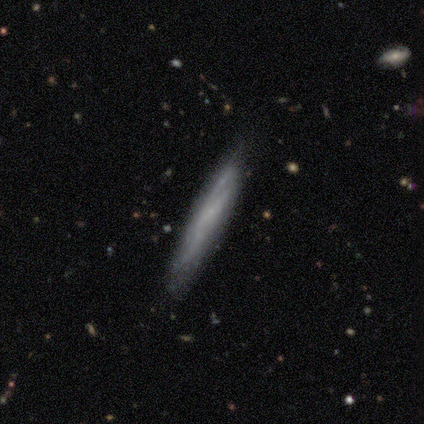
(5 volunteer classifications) This appears to be a featured or disk galaxy (60%) viewed edge-on (100%) with no central bulge (100%). Merging: none (100%).